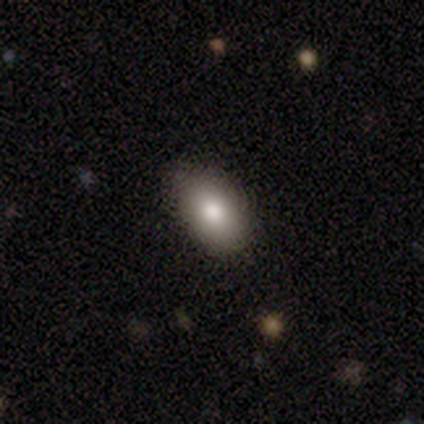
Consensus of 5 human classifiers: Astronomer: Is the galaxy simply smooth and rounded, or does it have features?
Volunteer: smooth — 80%.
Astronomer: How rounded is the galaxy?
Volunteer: in between — 100%.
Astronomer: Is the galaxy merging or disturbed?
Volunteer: none — 100%.